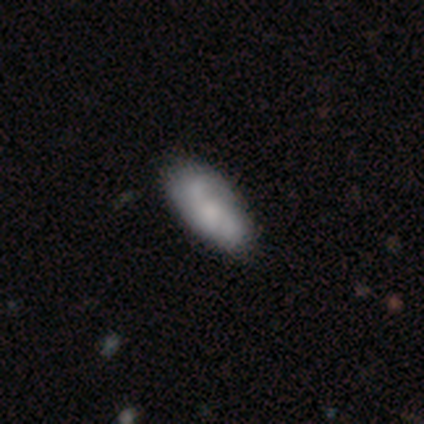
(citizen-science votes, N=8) This appears to be a smooth galaxy with no disk features (50%) that is in between round and cigar-shaped (100%). Merging: none (50%, tied with minor disturbance).